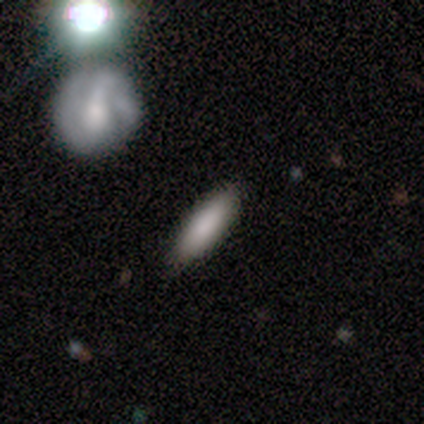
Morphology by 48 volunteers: A smooth galaxy with no disk features (88%) that is in between round and cigar-shaped (50%, tied with cigar-shaped). Merging: none (80%).